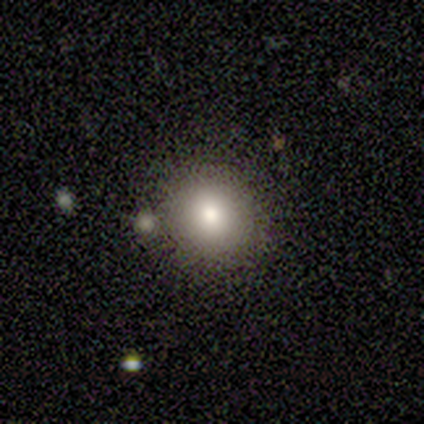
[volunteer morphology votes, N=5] type=smooth (80%); roundness=round (75%); merging=none (100%).